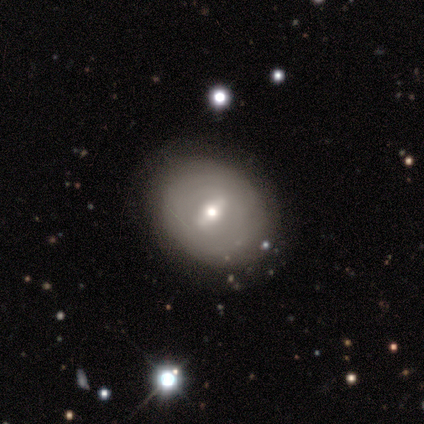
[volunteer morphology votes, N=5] Overall: featured or disk (60%; smooth 40%). Edge-on disk: no (100%). Bar: weak (100%). Spiral arms: yes (67%; no 33%). Spiral arm count: 2 (50%, tied with can't tell). Spiral winding: tight (100%). Bulge size: moderate (67%; small 33%). Merging: none (80%).